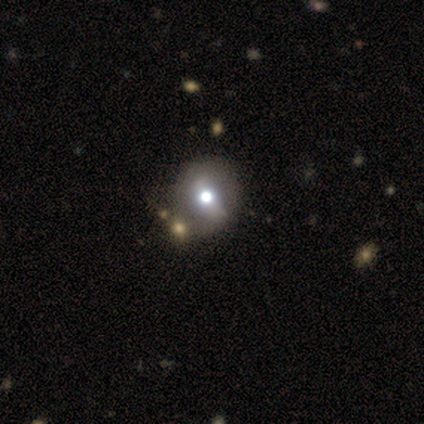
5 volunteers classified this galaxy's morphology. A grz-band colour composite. It shows a featured or disk galaxy (60%) with a weak bar (67%), no spiral arms (67%) and a large central bulge (67%). Merging: merger (60%).